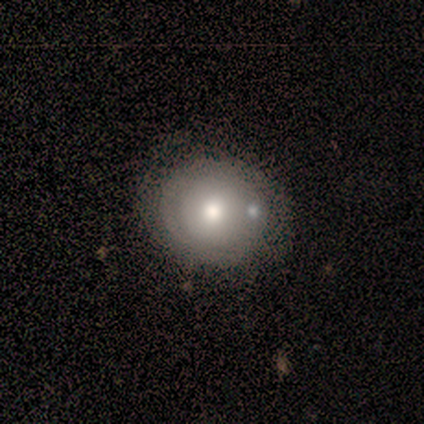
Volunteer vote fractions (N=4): smooth-or-featured: smooth: 100% | featured or disk: 0% | star or artifact: 0%
  how-rounded: round: 100% | in between: 0% | cigar-shaped: 0%
  merging: none: 75% | minor disturbance: 25% | major disturbance: 0% | merger: 0%